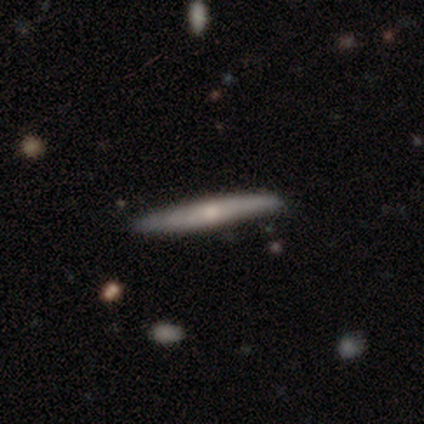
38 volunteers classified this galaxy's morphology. A featured or disk galaxy (53%) viewed edge-on (80%) with a rounded central bulge (62%). Merging: none (76%).